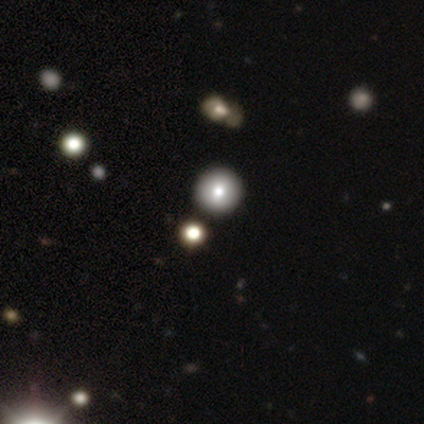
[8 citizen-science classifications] smooth-or-featured: smooth: 75% | star or artifact: 25% | featured or disk: 0%
  how-rounded: round: 100% | in between: 0% | cigar-shaped: 0%
  merging: none: 83% | minor disturbance: 17% | major disturbance: 0% | merger: 0%